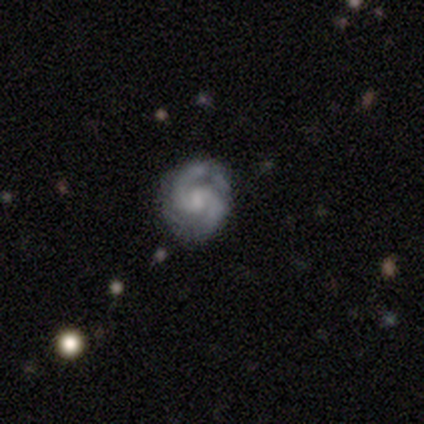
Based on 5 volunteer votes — A featured or disk galaxy (100%) with a weak bar (60%), 2 (100%) tight (60%) spiral arms (100%) and a moderate central bulge (40%, tied with small). Merging: none (100%).